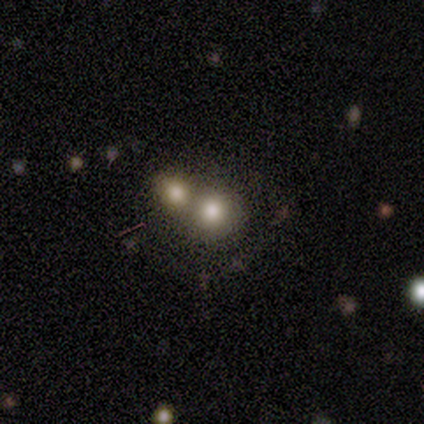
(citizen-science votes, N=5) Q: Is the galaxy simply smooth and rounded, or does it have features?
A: smooth — 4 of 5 (80%).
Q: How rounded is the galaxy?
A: round — 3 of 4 (75%).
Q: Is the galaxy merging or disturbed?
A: merger — 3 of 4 (75%).